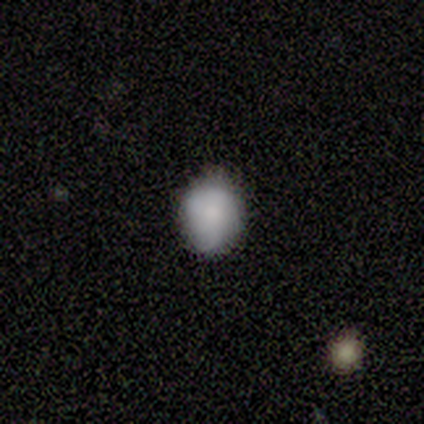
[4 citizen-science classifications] Smooth or featured? 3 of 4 (75%) said smooth. How rounded? 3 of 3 (100%) said in between. Merging? 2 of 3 (67%) said minor disturbance.